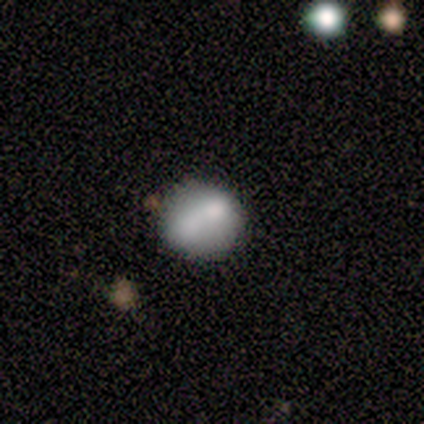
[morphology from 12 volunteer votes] smooth 42% (tied), featured or disk 42% (tied), star or artifact 17%. Down the decision tree: how rounded — round (60%); merging — none (40%, tied with merger).